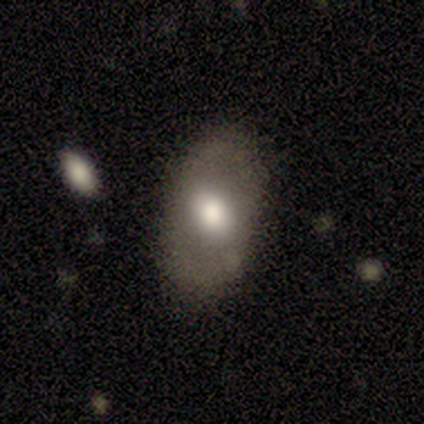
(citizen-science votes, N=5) Smooth or featured? smooth (60%)
How rounded? in between (67%)
Merging? none (60%)